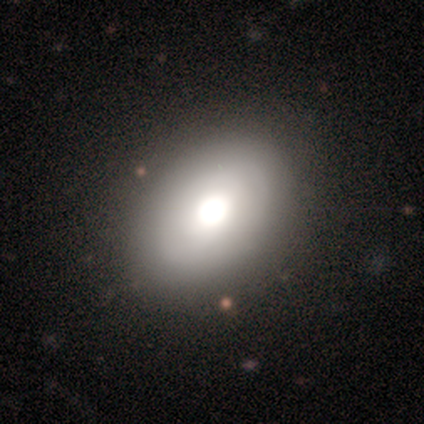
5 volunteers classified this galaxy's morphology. Smooth or featured? 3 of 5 (60%) said smooth. How rounded? 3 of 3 (100%) said in between. Merging? 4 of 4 (100%) said none.